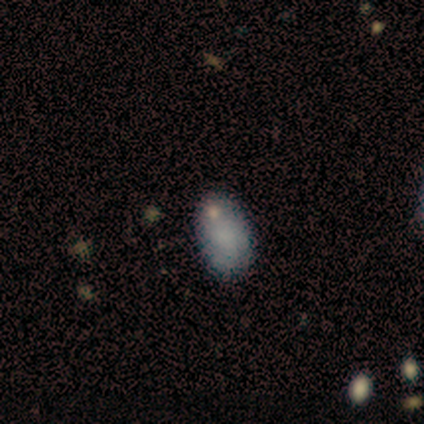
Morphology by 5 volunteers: Volunteers were most divided on "smooth or featured": smooth: 60%, featured or disk: 20%, star or artifact: 20%. More confident: how rounded — in between (100%); merging — none (75%).